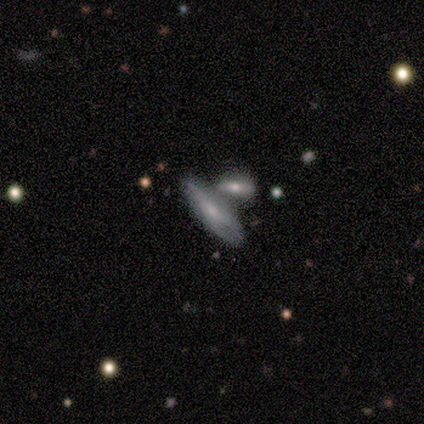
smooth-or-featured: featured or disk: 60% | smooth: 20% | star or artifact: 20%
  disk-edge-on: no: 100% | yes: 0%
    bar: no: 100% | strong: 0% | weak: 0%
    has-spiral-arms: yes: 67% | no: 33%
      spiral-winding: tight: 100% | medium: 0% | loose: 0%
      spiral-arm-count: 2: 50% (tied) | can't tell: 50% (tied) | 1: 0% | 3: 0% | 4: 0% | more than 4: 0%
    bulge-size: small: 67% | moderate: 33% | dominant: 0% | large: 0% | none: 0%
  merging: merger: 50% | none: 25% | major disturbance: 25% | minor disturbance: 0%